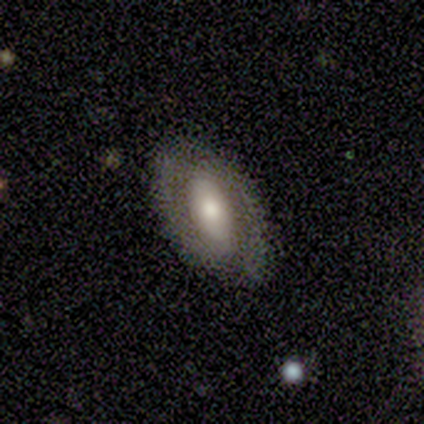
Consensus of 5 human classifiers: featured or disk 60%, smooth 40%, star or artifact 0%. Down the decision tree: edge-on disk — no (100%); bar — no (67%); spiral arms — yes (100%); spiral arm count — 2 (100%); spiral winding — tight (33%, tied with medium and loose); bulge size — moderate (100%); merging — none (60%).